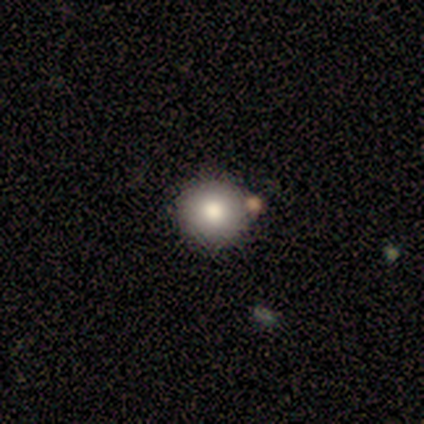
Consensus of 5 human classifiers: smooth 100%, featured or disk 0%, star or artifact 0%. Down the decision tree: how rounded — round (100%); merging — none (100%).